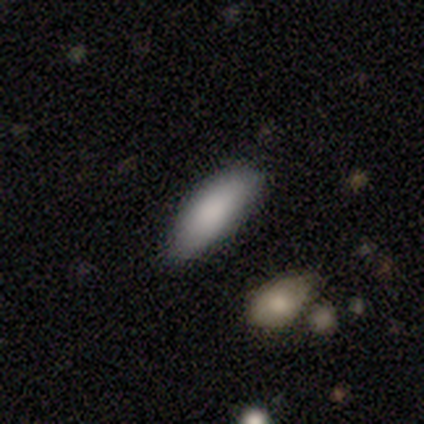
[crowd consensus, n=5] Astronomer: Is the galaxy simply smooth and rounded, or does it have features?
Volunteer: smooth — 80%.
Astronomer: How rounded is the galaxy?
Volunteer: in between — 50%, tied with cigar-shaped at 50%.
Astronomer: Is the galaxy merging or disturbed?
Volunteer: none — 80%.